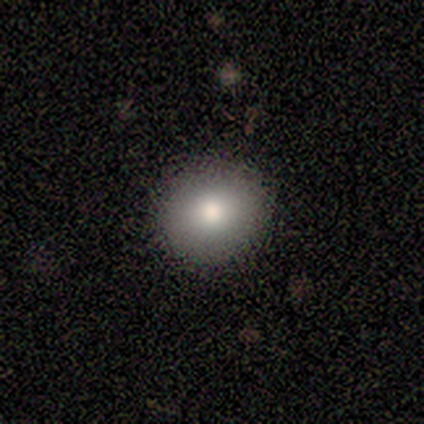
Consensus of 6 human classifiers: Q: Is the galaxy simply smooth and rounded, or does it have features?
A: smooth — 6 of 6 (100%).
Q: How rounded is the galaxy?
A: round — 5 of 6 (83%).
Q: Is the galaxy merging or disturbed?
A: none — 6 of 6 (100%).